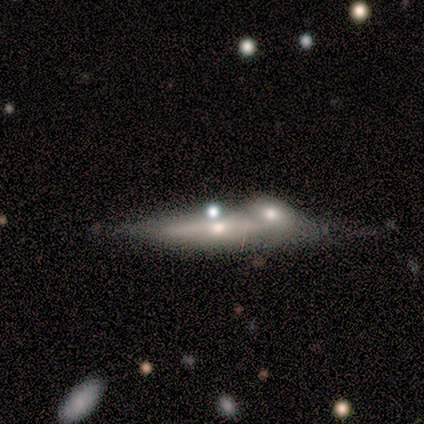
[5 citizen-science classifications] Smooth or featured? featured or disk (100%)
Edge-on disk? yes (60%)
Edge-on bulge? rounded (67%)
Merging? merger (60%)